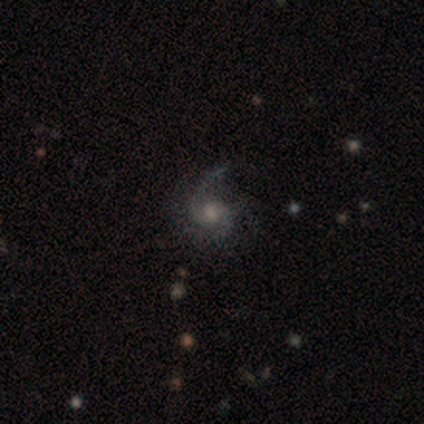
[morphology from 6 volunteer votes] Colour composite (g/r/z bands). It shows a featured or disk galaxy (83%) with no bar (60%), 2 (40%, tied with can't tell) tight (40%, tied with medium) spiral arms (100%) and a moderate central bulge (100%). Merging: none (60%).